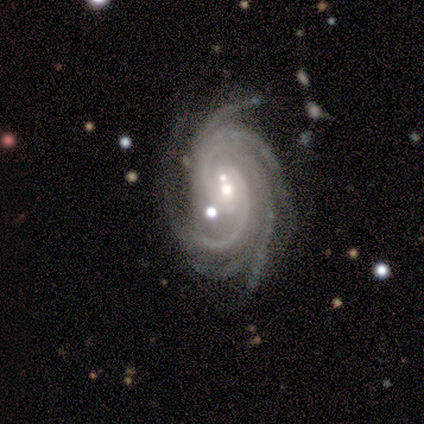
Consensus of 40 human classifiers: smooth-or-featured: featured or disk: 95% | star or artifact: 5% | smooth: 0%
  disk-edge-on: no: 92% | yes: 8%
    bar: no: 57% | weak: 34% | strong: 9%
    has-spiral-arms: yes: 100% | no: 0%
      spiral-winding: tight: 57% | medium: 34% | loose: 9%
      spiral-arm-count: more than 4: 60% | 4: 29% | 3: 6% | can't tell: 6% | 1: 0% | 2: 0%
    bulge-size: moderate: 63% | small: 37% | dominant: 0% | large: 0% | none: 0%
  merging: none: 61% | merger: 18% | minor disturbance: 13% | major disturbance: 8%